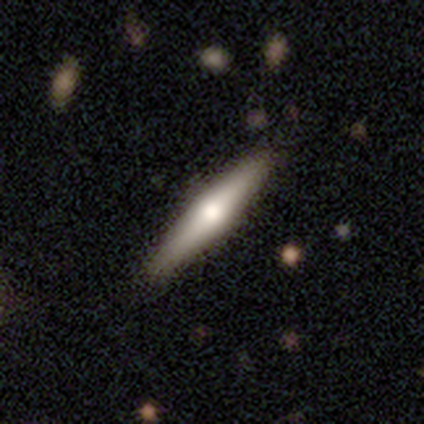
Volunteers were most divided on "smooth or featured": featured or disk: 59%, smooth: 41%, star or artifact: 0%. More confident: edge-on bulge — rounded (100%); merging — none (95%); edge-on disk — yes (92%).